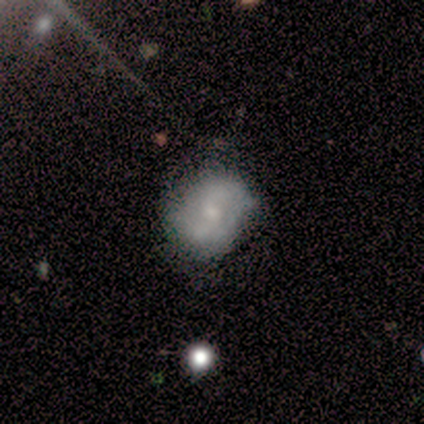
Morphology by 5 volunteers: A featured or disk galaxy (60%) with a weak bar (67%), 2 (50%, tied with can't tell) tight (50%, tied with loose) spiral arms (67%) and a small central bulge (67%).

Vote fractions:
- Smooth or featured? featured or disk: 60% / smooth: 40% / star or artifact: 0%
- Edge-on disk? no: 100% / yes: 0%
- Bar? weak: 67% / no: 33% / strong: 0%
- Spiral arms? yes: 67% / no: 33%
- Spiral winding? tight: 50% (tied) / loose: 50% (tied) / medium: 0%
- Spiral arm count? 2: 50% (tied) / can't tell: 50% (tied) / 1: 0% / 3: 0% / 4: 0% / more than 4: 0%
- Bulge size? small: 67% / moderate: 33% / dominant: 0% / large: 0% / none: 0%
- Merging? none: 100% / minor disturbance: 0% / major disturbance: 0% / merger: 0%